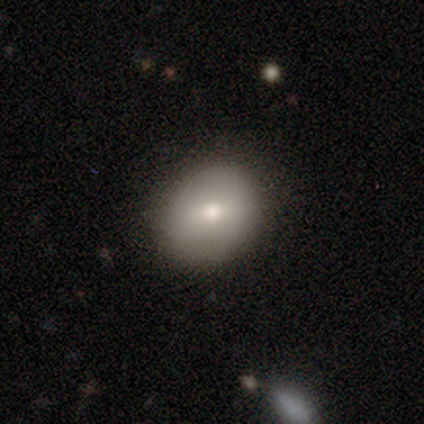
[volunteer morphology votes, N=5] This appears to be a smooth galaxy with no disk features (80%) that is round (75%). Merging: none (100%).